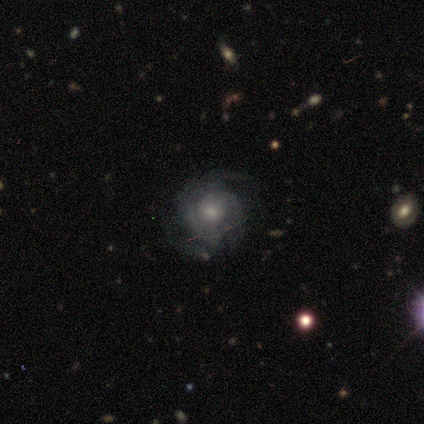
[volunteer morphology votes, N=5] featured or disk 80%, smooth 20%, star or artifact 0%. Down the decision tree: edge-on disk — no (100%); bar — no (75%); spiral arms — yes (100%); spiral arm count — 2 (50%); spiral winding — tight (50%); bulge size — small (75%); merging — none (60%).